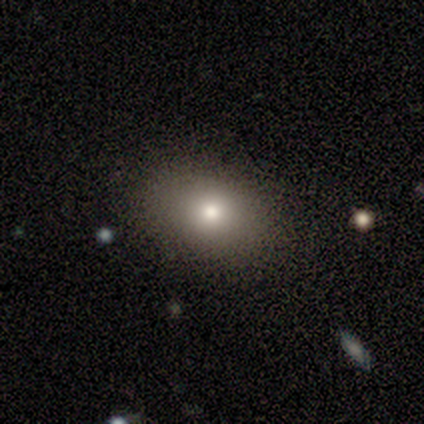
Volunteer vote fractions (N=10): Q: Smooth or featured?
A: smooth (80%); runner-up: featured or disk (10%)
Q: How rounded?
A: round (50%); tied with: in between (50%)
Q: Merging?
A: none (100%)